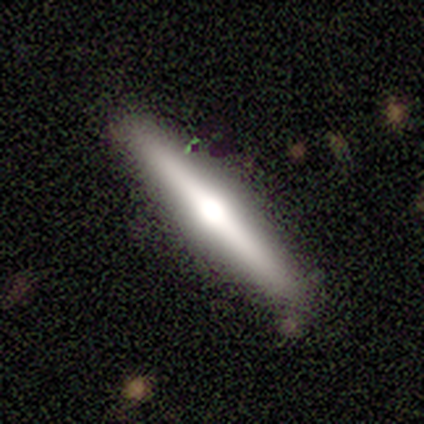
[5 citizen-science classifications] Smooth or featured?
  - featured or disk: 100% *
  - smooth: 0%
  - star or artifact: 0%
Edge-on disk?
  - yes: 100% *
  - no: 0%
Edge-on bulge?
  - rounded: 60% *
  - boxy: 20%
  - none: 20%
Merging?
  - none: 80% *
  - major disturbance: 20%
  - minor disturbance: 0%
  - merger: 0%